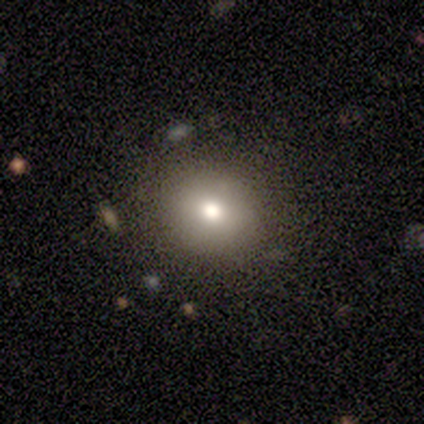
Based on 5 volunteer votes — smooth_or_featured: smooth (p=0.80) [alt: featured or disk p=0.20]
how_rounded: round (p=0.75) [alt: in between p=0.25]
merging: none (p=1.00)